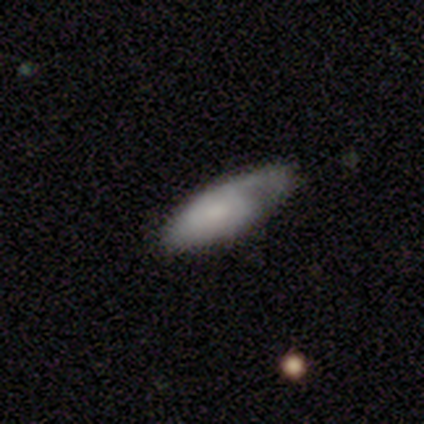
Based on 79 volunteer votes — A smooth galaxy with no disk features (57%) that is in between round and cigar-shaped (76%). Merging: none (41%).